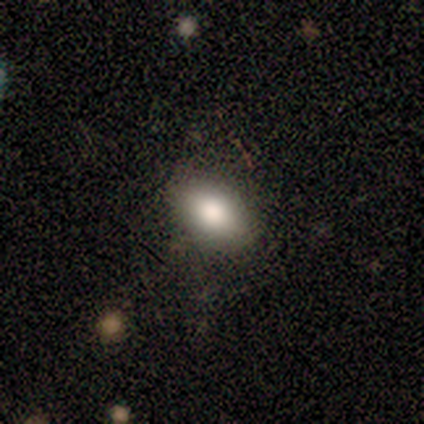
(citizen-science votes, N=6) Morphology: type=smooth (100%); roundness=in between (100%); merging=none (100%).